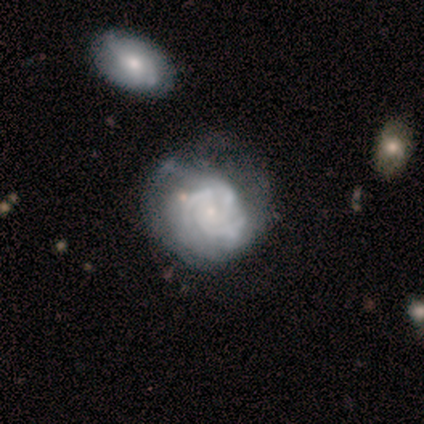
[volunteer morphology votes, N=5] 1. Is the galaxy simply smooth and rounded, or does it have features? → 80% featured or disk, 20% smooth, 0% star or artifact.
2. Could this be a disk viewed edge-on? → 75% no, 25% yes.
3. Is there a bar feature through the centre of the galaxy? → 67% weak, 33% no, 0% strong.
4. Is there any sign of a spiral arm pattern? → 100% yes, 0% no.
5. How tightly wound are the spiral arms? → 100% tight, 0% medium, 0% loose.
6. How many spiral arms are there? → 67% 3, 33% can't tell, 0% 1, 0% 2, 0% 4, 0% more than 4.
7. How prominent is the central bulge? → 100% small, 0% dominant, 0% large, 0% moderate, 0% none.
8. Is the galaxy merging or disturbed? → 60% none, 20% minor disturbance, 20% major disturbance, 0% merger.